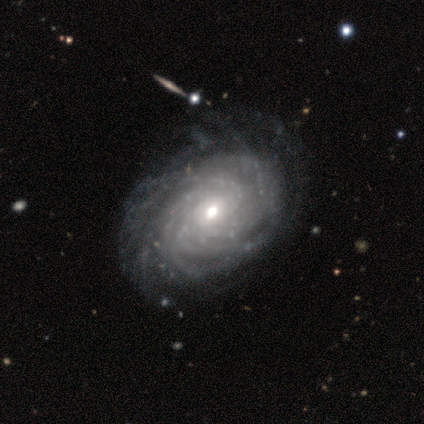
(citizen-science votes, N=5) This appears to be a featured or disk galaxy (100%) with no bar (100%), tight (100%) spiral arms (80%) and a small central bulge (80%). Merging: none (60%).